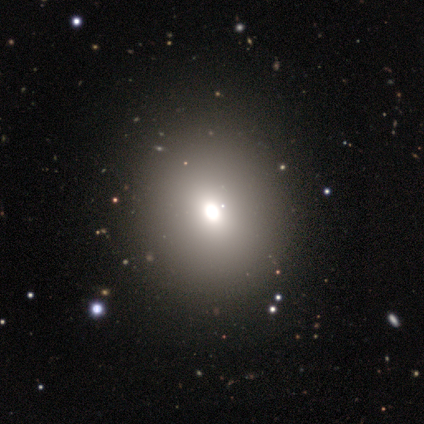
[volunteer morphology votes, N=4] Overall: smooth (75%). How rounded: round (67%; in between 33%). Merging: none (100%).